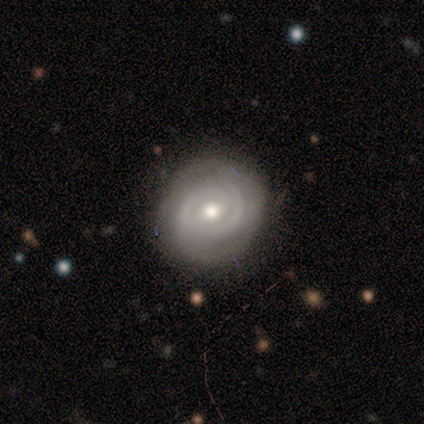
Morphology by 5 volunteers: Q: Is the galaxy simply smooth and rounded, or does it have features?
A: featured or disk — 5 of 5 (100%).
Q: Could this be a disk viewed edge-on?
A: no — 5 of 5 (100%).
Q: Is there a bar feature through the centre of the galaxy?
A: weak — 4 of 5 (80%).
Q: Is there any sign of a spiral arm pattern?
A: yes — 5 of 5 (100%).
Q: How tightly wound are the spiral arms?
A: tight — 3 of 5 (60%).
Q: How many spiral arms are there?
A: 2 — 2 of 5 (40%).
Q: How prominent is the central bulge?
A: moderate — 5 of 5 (100%).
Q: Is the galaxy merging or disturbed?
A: none — 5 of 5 (100%).